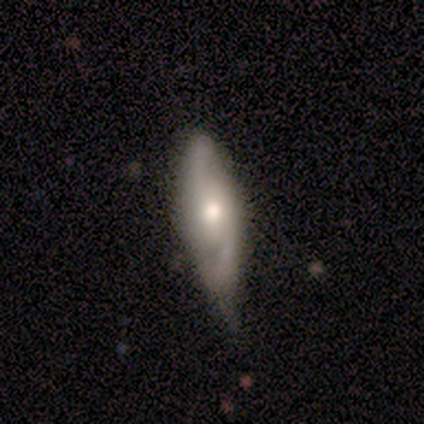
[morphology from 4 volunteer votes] Q: Smooth or featured?
A: featured or disk (100%)
Q: Edge-on disk?
A: no (75%); runner-up: yes (25%)
Q: Bar?
A: no (67%); runner-up: weak (33%)
Q: Spiral arms?
A: yes (100%)
Q: Spiral winding?
A: loose (100%)
Q: Spiral arm count?
A: 2 (100%)
Q: Bulge size?
A: moderate (67%); runner-up: small (33%)
Q: Merging?
A: minor disturbance (75%); runner-up: major disturbance (25%)